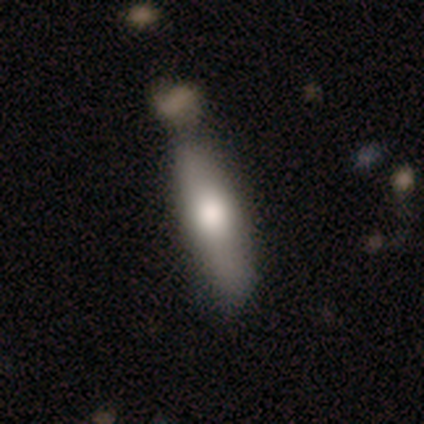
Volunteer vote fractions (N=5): A smooth galaxy with no disk features (60%) that is cigar-shaped (100%). Merging: none (60%).